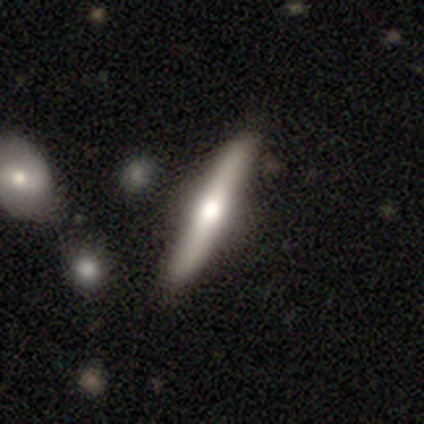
Morphology: type=smooth (50%, tied with featured or disk); roundness=cigar-shaped (100%); merging=none (75%).